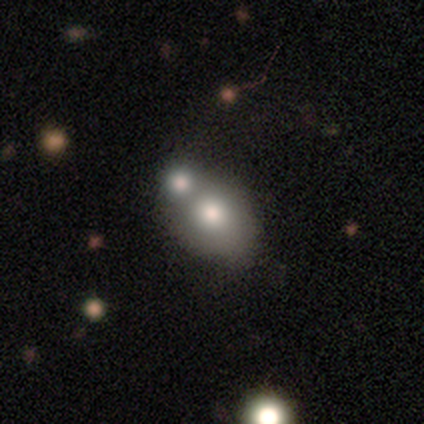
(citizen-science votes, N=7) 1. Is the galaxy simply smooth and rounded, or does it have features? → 86% smooth, 14% featured or disk, 0% star or artifact.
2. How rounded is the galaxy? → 50% round (tied), 50% in between (tied), 0% cigar-shaped.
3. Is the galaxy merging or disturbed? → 43% none (tied), 43% merger (tied), 14% minor disturbance, 0% major disturbance.